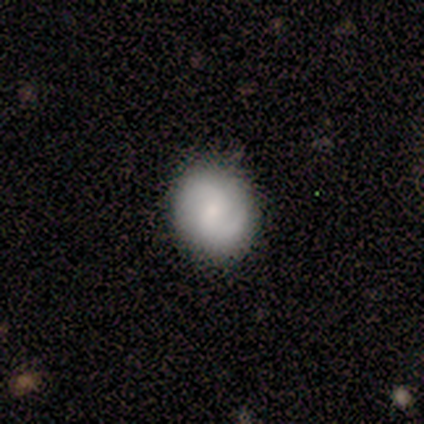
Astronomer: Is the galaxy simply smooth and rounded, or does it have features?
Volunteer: featured or disk — 80%.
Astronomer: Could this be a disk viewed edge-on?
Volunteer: no — 100%.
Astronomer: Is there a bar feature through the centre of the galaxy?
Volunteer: weak — 50%, tied with no at 50%.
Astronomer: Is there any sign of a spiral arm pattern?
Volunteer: yes — 100%.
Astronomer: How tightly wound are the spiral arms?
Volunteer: loose — 75%.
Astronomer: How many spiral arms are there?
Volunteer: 2 — 75%.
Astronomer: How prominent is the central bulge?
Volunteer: small — 50%.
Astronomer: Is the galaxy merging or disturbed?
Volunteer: none — 100%.